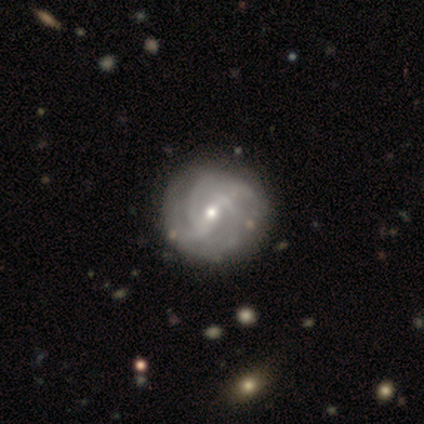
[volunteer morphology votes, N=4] A featured or disk galaxy (75%) with a strong bar (67%), 2 (33%, tied with 4 and can't tell) medium (67%) spiral arms (100%) and a small central bulge (67%). Merging: none (50%).